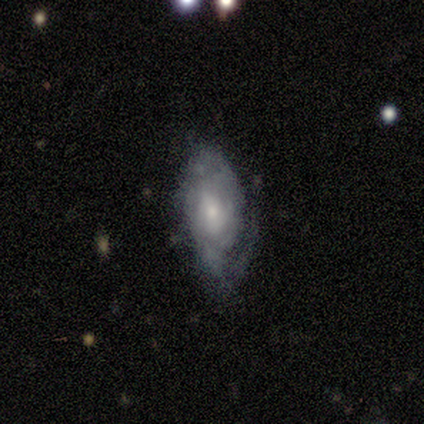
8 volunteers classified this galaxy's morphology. This appears to be a featured or disk galaxy (75%) with a weak bar (50%, tied with no), 1 (25%, tied with 2, 3 and can't tell) tight (50%) spiral arms (67%) and a small central bulge (67%). Merging: minor disturbance (62%).